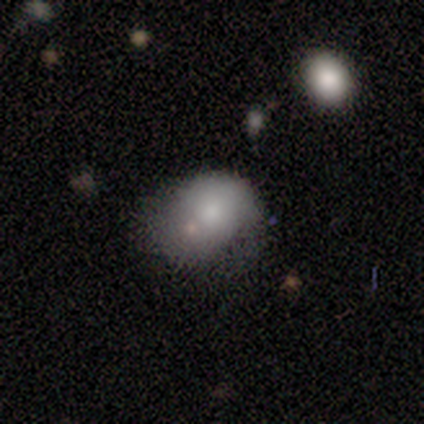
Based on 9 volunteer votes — Smooth or featured: smooth — 78% (featured or disk — 22%)
How rounded: in between — 71% (round — 29%)
Merging: none — 33% (tied with minor disturbance — 33%)